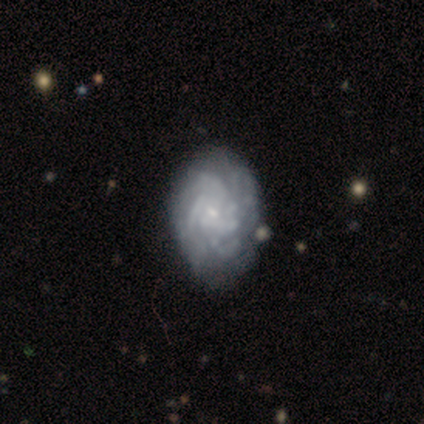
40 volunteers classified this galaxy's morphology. Smooth or featured? 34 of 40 (85%) said featured or disk. Edge-on disk? 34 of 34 (100%) said no. Bar? 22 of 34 (65%) said no. Spiral arms? 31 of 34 (91%) said yes. Spiral winding? 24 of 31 (77%) said tight. Spiral arm count? 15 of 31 (48%) said can't tell. Bulge size? 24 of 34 (71%) said small. Merging? 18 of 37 (49%) said none.